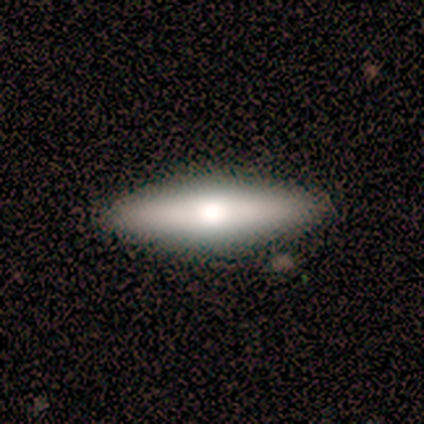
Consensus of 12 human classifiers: A smooth galaxy with no disk features (58%) that is cigar-shaped (71%).

Vote fractions:
- Smooth or featured? smooth: 58% / featured or disk: 42% / star or artifact: 0%
- How rounded? cigar-shaped: 71% / in between: 29% / round: 0%
- Merging? none: 100% / minor disturbance: 0% / major disturbance: 0% / merger: 0%